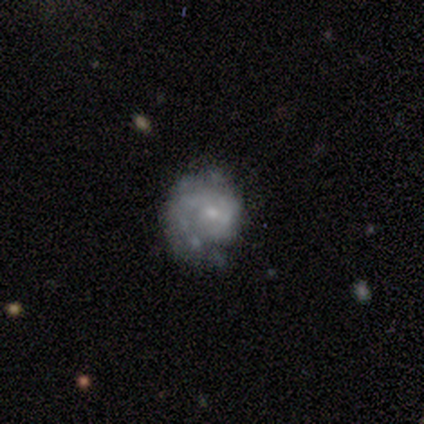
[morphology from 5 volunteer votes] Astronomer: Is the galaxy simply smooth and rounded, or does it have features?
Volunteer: featured or disk — 80%.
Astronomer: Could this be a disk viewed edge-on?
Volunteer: no — 100%.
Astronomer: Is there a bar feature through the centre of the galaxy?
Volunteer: no — 75%.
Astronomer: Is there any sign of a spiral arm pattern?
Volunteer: yes — 75%.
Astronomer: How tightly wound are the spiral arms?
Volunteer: tight — 67%.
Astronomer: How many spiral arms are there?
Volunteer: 1 — 100%.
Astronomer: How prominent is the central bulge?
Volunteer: moderate — 50%.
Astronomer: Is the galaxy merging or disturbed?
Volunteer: none — 80%.